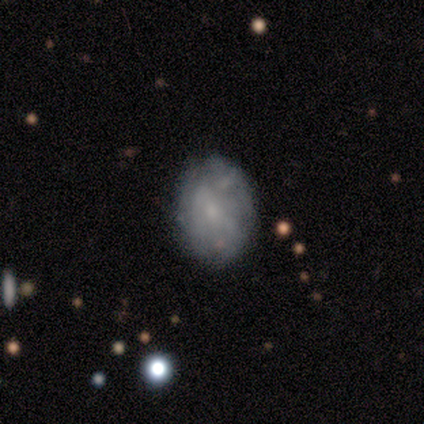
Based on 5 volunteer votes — A featured or disk galaxy (60%) with a weak bar (67%), no spiral arms (67%) and no central bulge (67%). Merging: none (75%).